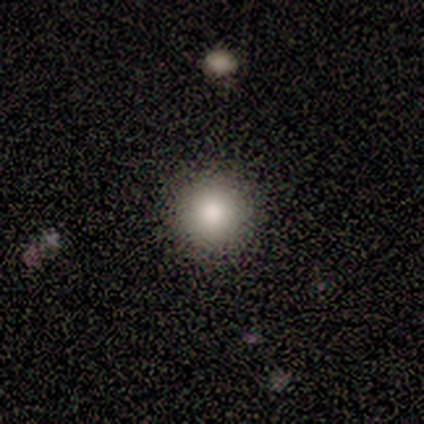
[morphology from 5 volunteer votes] smooth_or_featured: smooth (p=1.00)
how_rounded: round (p=1.00)
merging: none (p=0.60) [alt: minor disturbance p=0.20]